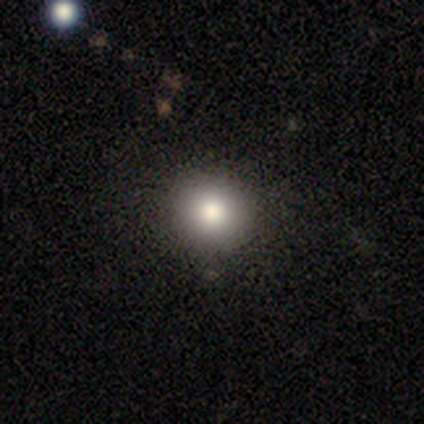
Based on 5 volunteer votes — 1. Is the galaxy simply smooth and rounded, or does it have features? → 100% smooth, 0% featured or disk, 0% star or artifact.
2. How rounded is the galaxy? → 100% round, 0% in between, 0% cigar-shaped.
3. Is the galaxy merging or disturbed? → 60% none, 20% minor disturbance, 20% merger, 0% major disturbance.